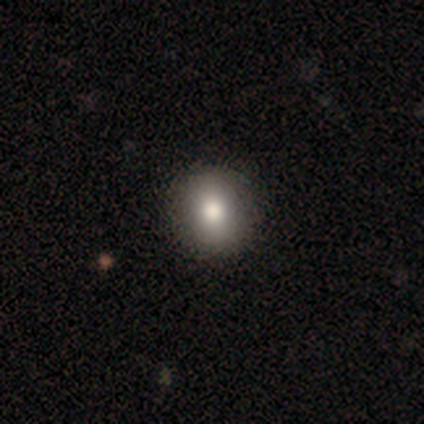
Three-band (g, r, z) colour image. It shows a smooth galaxy with no disk features (100%) that is round (60%). Merging: none (100%).